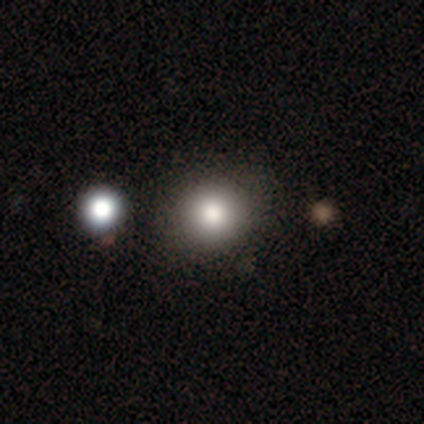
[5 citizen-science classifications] Q: Smooth or featured?
A: smooth (100%)
Q: How rounded?
A: round (100%)
Q: Merging?
A: none (100%)